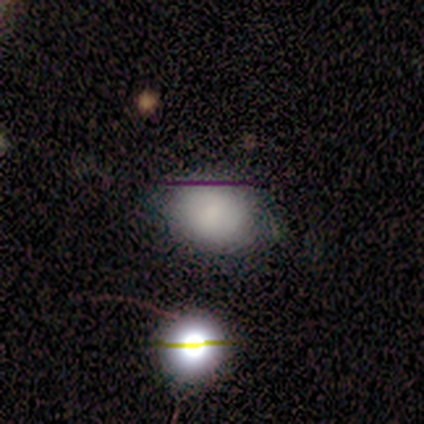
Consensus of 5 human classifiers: smooth_or_featured: smooth (p=1.00)
how_rounded: round (p=0.60) [alt: in between p=0.40]
merging: none (p=0.80) [alt: merger p=0.20]